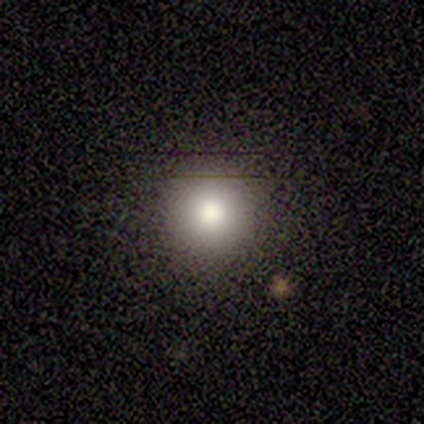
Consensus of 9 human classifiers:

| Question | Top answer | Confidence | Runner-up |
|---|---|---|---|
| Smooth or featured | smooth | 100% | — |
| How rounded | round | 89% | in between (11%) |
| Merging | none | 89% | merger (11%) |